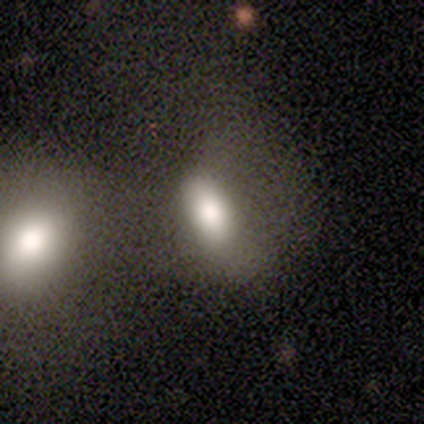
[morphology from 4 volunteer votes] Volunteers were most divided on "merging": minor disturbance: 50%, major disturbance: 25%, merger: 25%, none: 0%. More confident: smooth or featured — smooth (100%); how rounded — in between (100%).